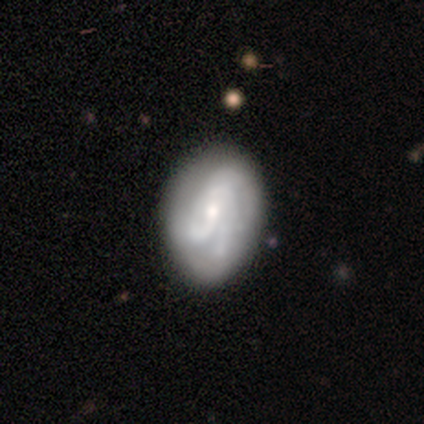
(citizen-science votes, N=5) Smooth or featured?
  - featured or disk: 80% *
  - star or artifact: 20%
  - smooth: 0%
Edge-on disk?
  - no: 100% *
  - yes: 0%
Bar?
  - no: 75% *
  - strong: 25%
  - weak: 0%
Spiral arms?
  - yes: 100% *
  - no: 0%
Spiral winding?
  - tight: 75% *
  - medium: 25%
  - loose: 0%
Spiral arm count?
  - 3: 50% *
  - 4: 25%
  - can't tell: 25%
  - 1: 0%
  - 2: 0%
  - more than 4: 0%
Bulge size?
  - moderate: 50% * (tied)
  - small: 50% * (tied)
  - dominant: 0%
  - large: 0%
  - none: 0%
Merging?
  - none: 50% * (tied)
  - minor disturbance: 50% * (tied)
  - major disturbance: 0%
  - merger: 0%